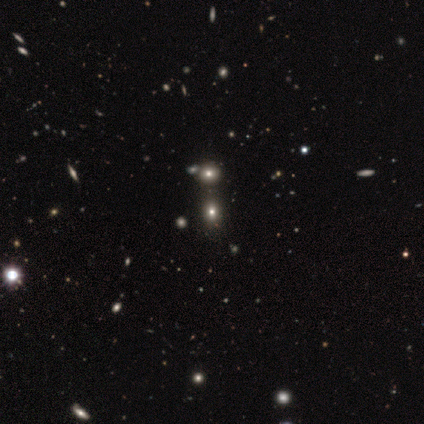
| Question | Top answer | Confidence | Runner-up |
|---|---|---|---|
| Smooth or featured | smooth | 80% | star or artifact (20%) |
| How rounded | round | 100% | — |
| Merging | none | 75% | merger (25%) |